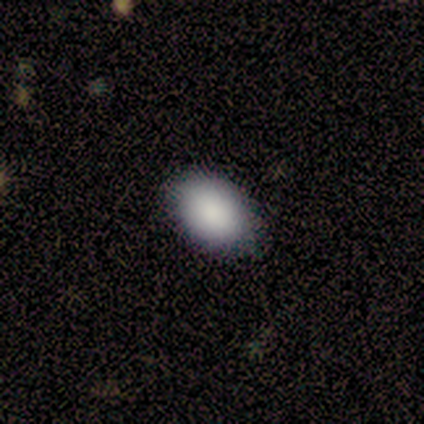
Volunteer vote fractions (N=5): This appears to be a smooth galaxy with no disk features (100%) that is in between round and cigar-shaped (80%). Merging: none (80%).